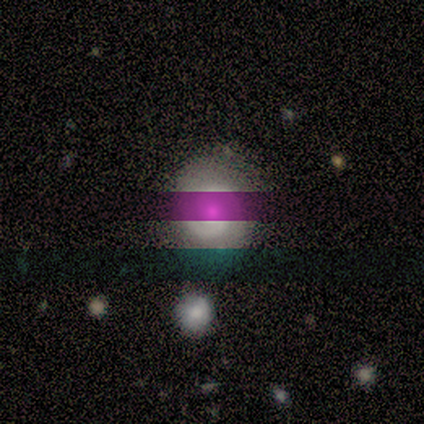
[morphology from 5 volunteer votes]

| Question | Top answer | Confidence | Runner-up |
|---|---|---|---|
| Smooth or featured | star or artifact | 60% | featured or disk (40%) |